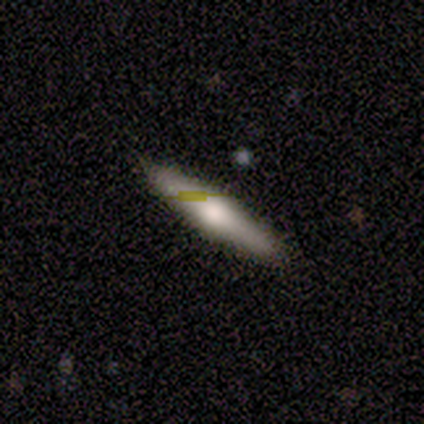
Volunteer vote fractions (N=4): A featured or disk galaxy (75%) viewed edge-on (100%) with no central bulge (67%). Merging: none (75%).